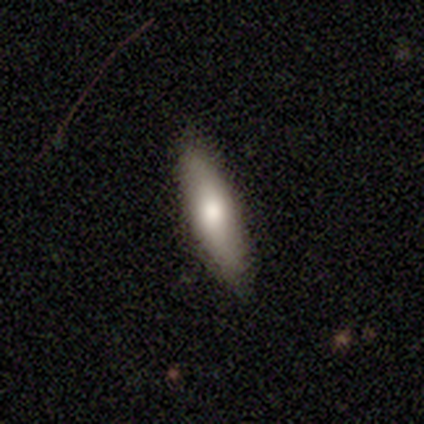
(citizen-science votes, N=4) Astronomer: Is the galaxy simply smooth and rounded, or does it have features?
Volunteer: smooth — 50%, tied with featured or disk at 50%.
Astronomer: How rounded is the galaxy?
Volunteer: in between — 50%, tied with cigar-shaped at 50%.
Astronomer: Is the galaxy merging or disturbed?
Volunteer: none — 100%.